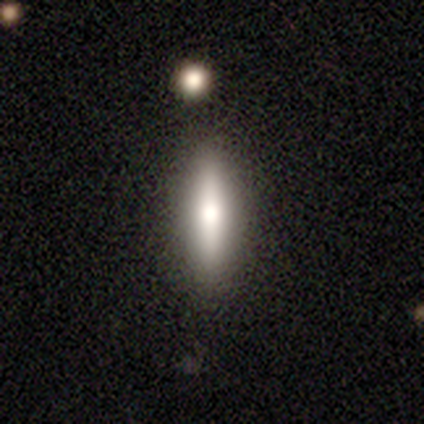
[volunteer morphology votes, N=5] type=featured or disk (60%); edge-on=yes (100%); edge-on bulge=rounded (100%); merging=none (100%).